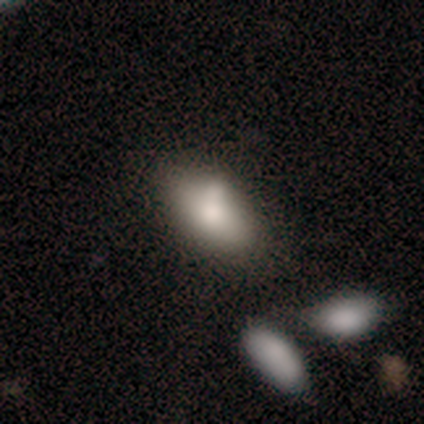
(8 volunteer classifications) Smooth or featured? 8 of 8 (100%) said smooth. How rounded? 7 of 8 (88%) said in between. Merging? 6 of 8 (75%) said none.